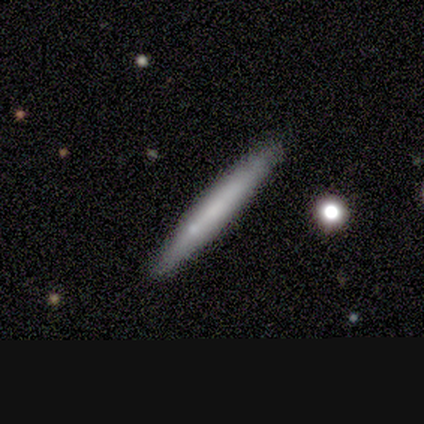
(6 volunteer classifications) smooth_or_featured: smooth (p=0.83) [alt: featured or disk p=0.17]
how_rounded: cigar-shaped (p=0.80) [alt: in between p=0.20]
merging: none (p=0.83) [alt: merger p=0.17]